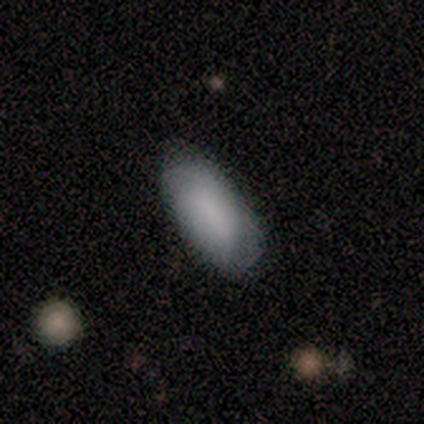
smooth_or_featured: smooth (p=0.78) [alt: featured or disk p=0.22]
how_rounded: in between (p=1.00)
merging: none (p=0.67) [alt: minor disturbance p=0.33]